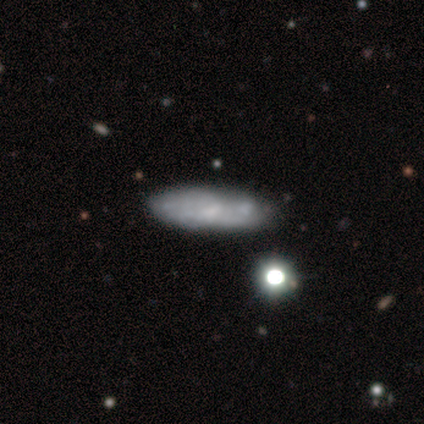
A smooth galaxy with no disk features (49%) that is cigar-shaped (63%).

Vote fractions:
- Smooth or featured? smooth: 49% / featured or disk: 44% / star or artifact: 8%
- How rounded? cigar-shaped: 63% / in between: 37% / round: 0%
- Merging? none: 69% / minor disturbance: 17% / merger: 11% / major disturbance: 3%